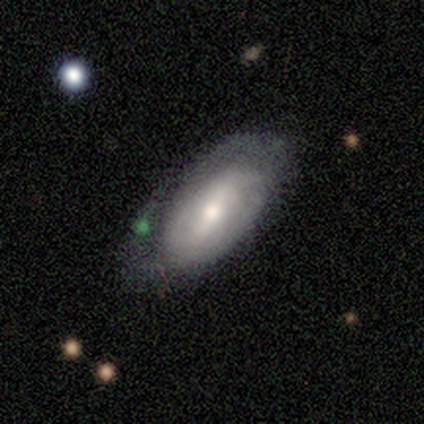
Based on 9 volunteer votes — Smooth or featured? featured or disk (67%)
Edge-on disk? no (100%)
Bar? weak (50%)
Spiral arms? no (67%)
Bulge size? moderate (67%)
Merging? none (78%)